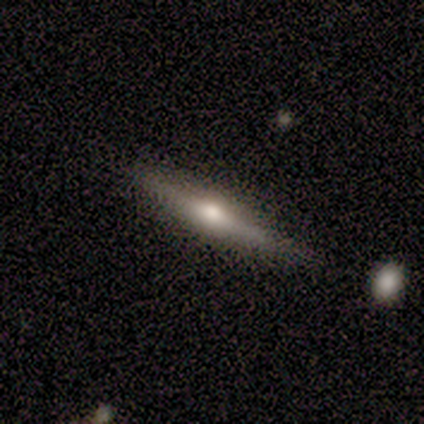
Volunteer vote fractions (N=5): smooth-or-featured: featured or disk: 80% | smooth: 20% | star or artifact: 0%
  disk-edge-on: yes: 100% | no: 0%
    edge-on-bulge: rounded: 100% | boxy: 0% | none: 0%
  merging: none: 100% | minor disturbance: 0% | major disturbance: 0% | merger: 0%